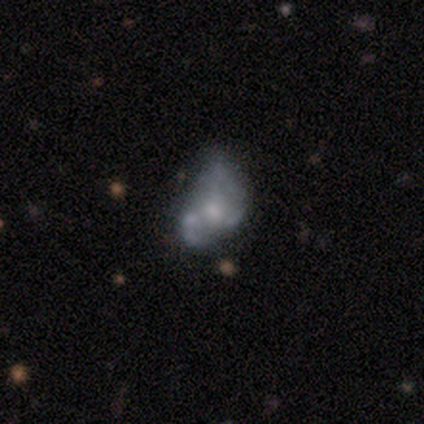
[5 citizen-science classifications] featured or disk 80%, smooth 20%, star or artifact 0%. Down the decision tree: edge-on disk — no (100%); bar — no (75%); spiral arms — yes (50%, tied with no); spiral arm count — 2 (100%); spiral winding — medium (100%); bulge size — small (50%); merging — minor disturbance (40%).